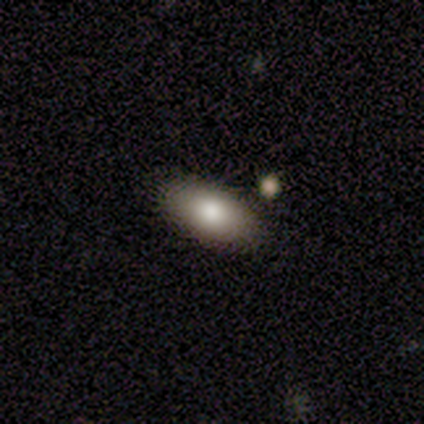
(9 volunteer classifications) Smooth or featured? 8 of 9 (89%) said smooth. How rounded? 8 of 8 (100%) said in between. Merging? 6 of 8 (75%) said none.